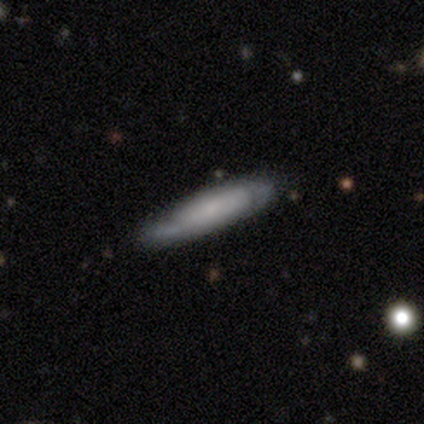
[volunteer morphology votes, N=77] Smooth or featured? smooth (57%)
How rounded? cigar-shaped (80%)
Merging? none (38%)